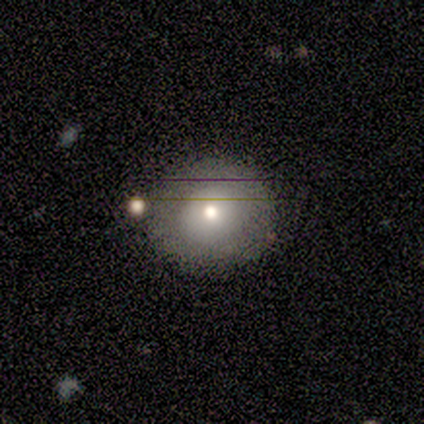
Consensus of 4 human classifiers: Overall: smooth (50%, tied with featured or disk). How rounded: round (50%, tied with in between). Merging: none (100%).